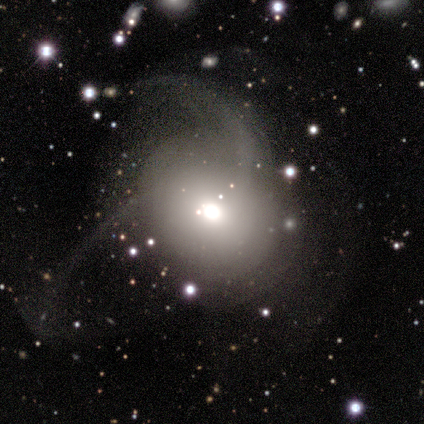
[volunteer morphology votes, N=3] Overall: featured or disk (67%; smooth 33%). Edge-on disk: yes (50%, tied with no). Edge-on bulge: rounded (100%). Merging: major disturbance (100%).